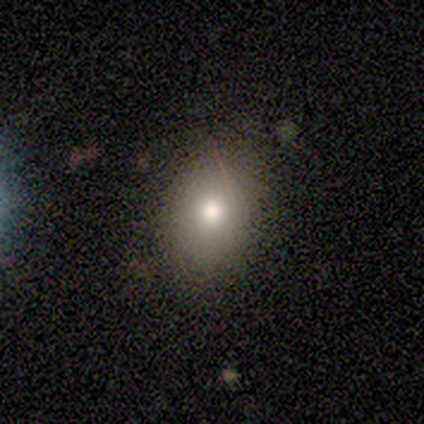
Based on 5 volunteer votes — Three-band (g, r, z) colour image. It shows a smooth galaxy with no disk features (100%) that is in between round and cigar-shaped (100%). Merging: none (80%).